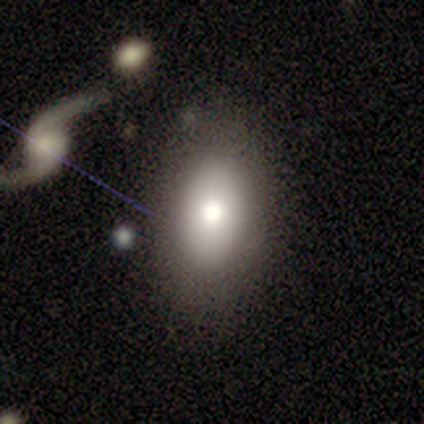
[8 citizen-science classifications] Smooth or featured: smooth — 75% (featured or disk — 25%)
How rounded: in between — 100%
Merging: none — 75% (major disturbance — 25%)